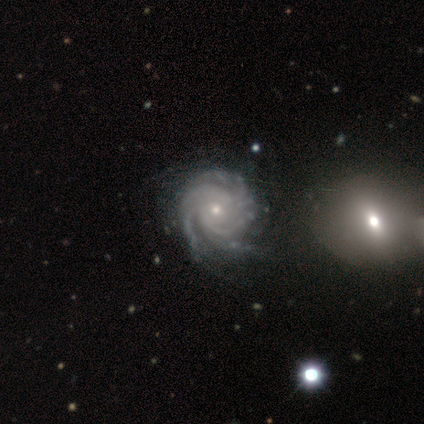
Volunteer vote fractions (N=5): A featured or disk galaxy (100%) with no bar (100%), 3 (40%, tied with more than 4) tight (100%) spiral arms (100%) and a small central bulge (80%).

Vote fractions:
- Smooth or featured? featured or disk: 100% / smooth: 0% / star or artifact: 0%
- Edge-on disk? no: 100% / yes: 0%
- Bar? no: 100% / strong: 0% / weak: 0%
- Spiral arms? yes: 100% / no: 0%
- Spiral winding? tight: 100% / medium: 0% / loose: 0%
- Spiral arm count? 3: 40% (tied) / more than 4: 40% (tied) / can't tell: 20% / 1: 0% / 2: 0% / 4: 0%
- Bulge size? small: 80% / moderate: 20% / dominant: 0% / large: 0% / none: 0%
- Merging? none: 60% / minor disturbance: 40% / major disturbance: 0% / merger: 0%